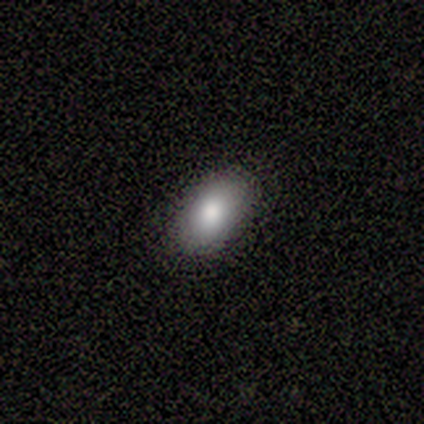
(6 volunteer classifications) smooth 83%, featured or disk 17%, star or artifact 0%. Down the decision tree: how rounded — in between (100%); merging — none (100%).